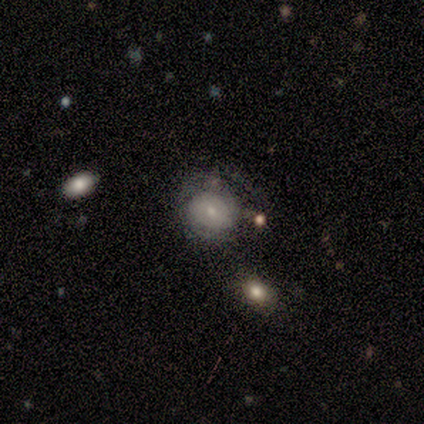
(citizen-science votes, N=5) A featured or disk galaxy (60%) with no bar (100%), no spiral arms (67%) and a small central bulge (100%).

Vote fractions:
- Smooth or featured? featured or disk: 60% / smooth: 40% / star or artifact: 0%
- Edge-on disk? no: 100% / yes: 0%
- Bar? no: 100% / strong: 0% / weak: 0%
- Spiral arms? no: 67% / yes: 33%
- Bulge size? small: 100% / dominant: 0% / large: 0% / moderate: 0% / none: 0%
- Merging? none: 80% / minor disturbance: 20% / major disturbance: 0% / merger: 0%